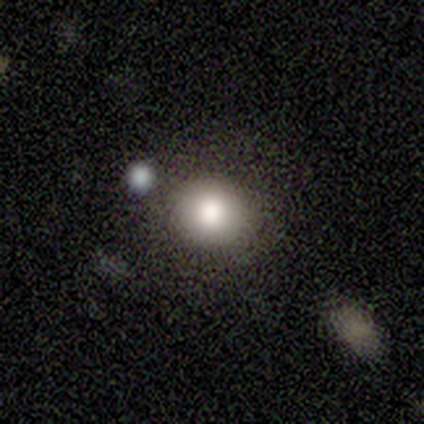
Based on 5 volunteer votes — Smooth or featured?
  - smooth: 80% *
  - star or artifact: 20%
  - featured or disk: 0%
How rounded?
  - round: 75% *
  - in between: 25%
  - cigar-shaped: 0%
Merging?
  - none: 50% *
  - minor disturbance: 25%
  - merger: 25%
  - major disturbance: 0%